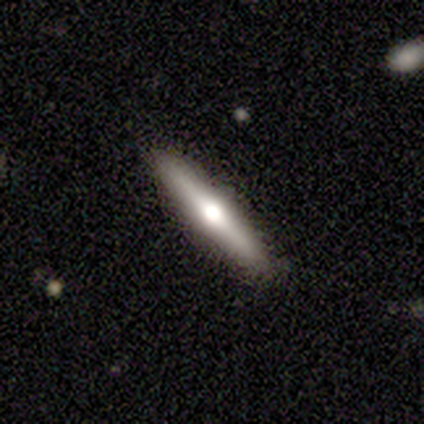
A featured or disk galaxy (68%) viewed edge-on (89%) with a rounded central bulge (100%). Merging: none (87%).